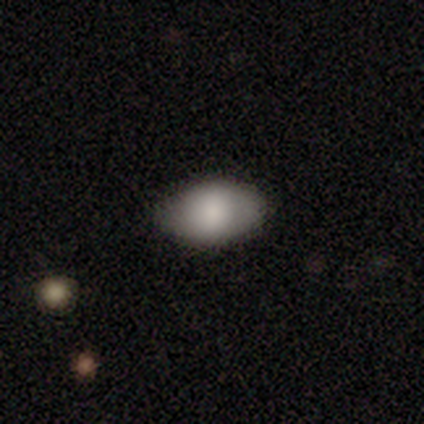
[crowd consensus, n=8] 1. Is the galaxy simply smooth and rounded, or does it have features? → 100% smooth, 0% featured or disk, 0% star or artifact.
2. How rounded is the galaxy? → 100% in between, 0% round, 0% cigar-shaped.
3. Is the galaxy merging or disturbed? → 88% none, 12% minor disturbance, 0% major disturbance, 0% merger.